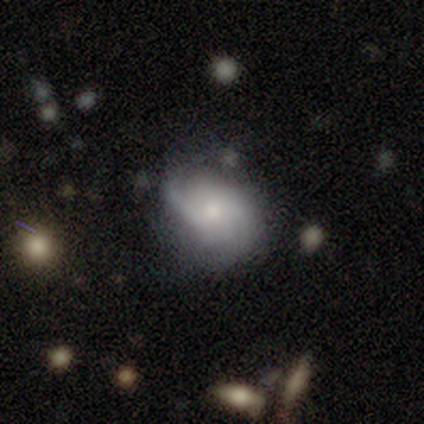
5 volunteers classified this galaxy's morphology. This appears to be a smooth galaxy with no disk features (60%) that is in between round and cigar-shaped (100%). Merging: minor disturbance (60%).